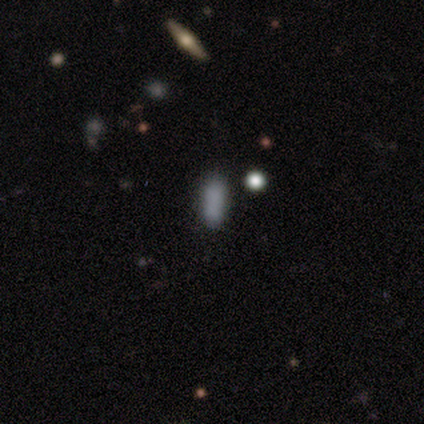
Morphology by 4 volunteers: This appears to be a smooth galaxy with no disk features (75%) that is in between round and cigar-shaped (100%). Merging: none (100%).